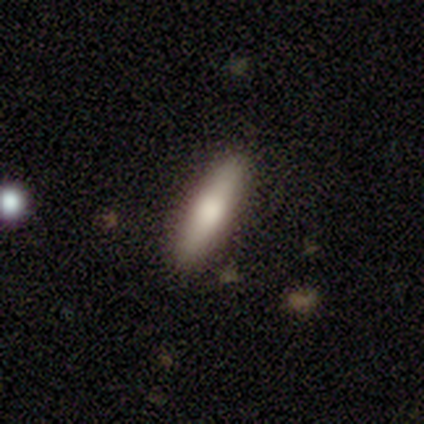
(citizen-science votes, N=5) This appears to be a smooth galaxy with no disk features (80%) that is cigar-shaped (75%). Merging: none (100%).